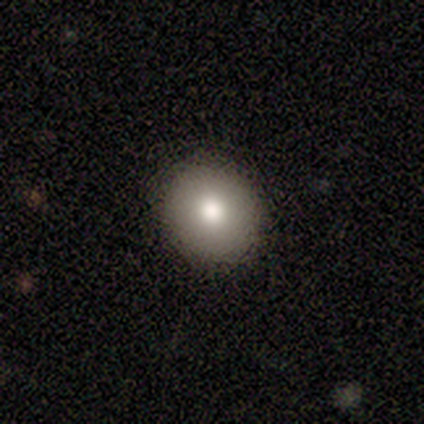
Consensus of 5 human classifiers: smooth_or_featured: smooth (p=0.80) [alt: star or artifact p=0.20]
how_rounded: round (p=0.50) [tied with: in between p=0.50]
merging: none (p=1.00)